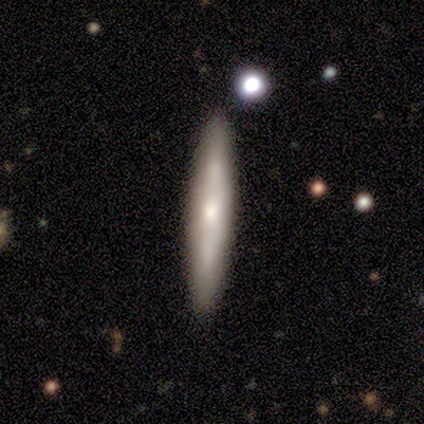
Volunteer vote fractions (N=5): smooth-or-featured: featured or disk: 60% | smooth: 40% | star or artifact: 0%
  disk-edge-on: yes: 67% | no: 33%
    edge-on-bulge: boxy: 50% (tied) | none: 50% (tied) | rounded: 0%
  merging: none: 80% | minor disturbance: 20% | major disturbance: 0% | merger: 0%